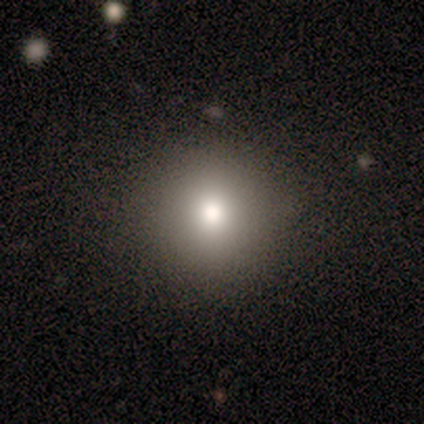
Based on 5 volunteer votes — Q: Smooth or featured?
A: smooth (80%); runner-up: star or artifact (20%)
Q: How rounded?
A: round (100%)
Q: Merging?
A: none (100%)